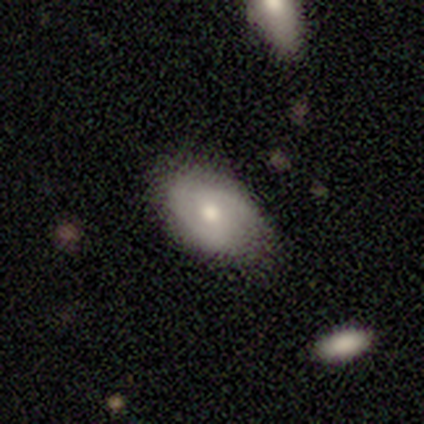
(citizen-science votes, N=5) smooth-or-featured: smooth: 60% | featured or disk: 20% | star or artifact: 20%
  how-rounded: in between: 100% | round: 0% | cigar-shaped: 0%
  merging: none: 50% (tied) | minor disturbance: 50% (tied) | major disturbance: 0% | merger: 0%